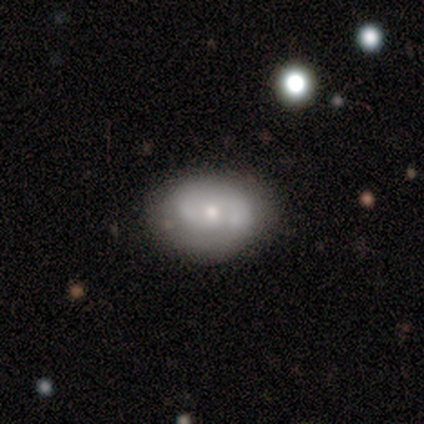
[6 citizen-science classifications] smooth_or_featured: featured or disk (p=0.67) [alt: smooth p=0.33]
disk_edge_on: no (p=1.00)
bar: no (p=0.75) [alt: weak p=0.25]
has_spiral_arms: yes (p=0.50) [tied with: no p=0.50]
spiral_winding: medium (p=0.50) [tied with: loose p=0.50]
spiral_arm_count: 2 (p=1.00)
bulge_size: small (p=0.75) [alt: moderate p=0.25]
merging: none (p=0.67) [alt: minor disturbance p=0.33]